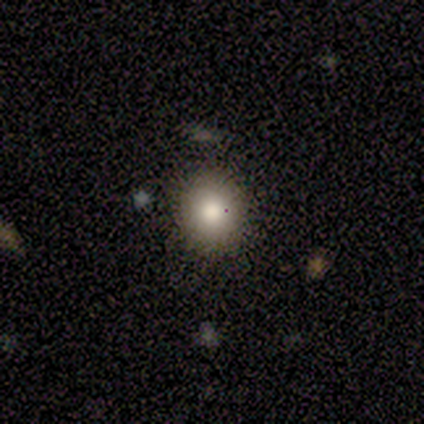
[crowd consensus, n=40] Smooth or featured: smooth — 78% (featured or disk — 12%)
How rounded: round — 84% (in between — 16%)
Merging: none — 78% (minor disturbance — 6%)